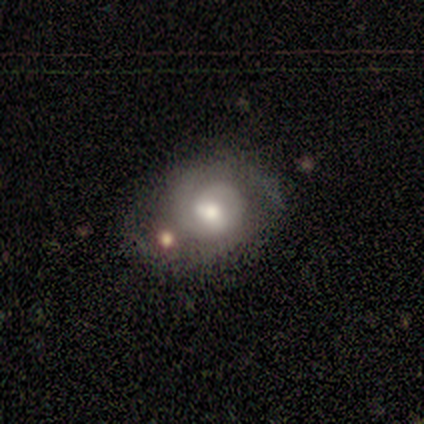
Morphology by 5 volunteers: Q: Smooth or featured?
A: featured or disk (80%); runner-up: smooth (20%)
Q: Edge-on disk?
A: no (100%)
Q: Bar?
A: no (100%)
Q: Spiral arms?
A: yes (100%)
Q: Spiral winding?
A: tight (75%); runner-up: medium (25%)
Q: Spiral arm count?
A: 2 (75%); runner-up: 1 (25%)
Q: Bulge size?
A: moderate (75%); runner-up: large (25%)
Q: Merging?
A: none (60%); runner-up: minor disturbance (40%)